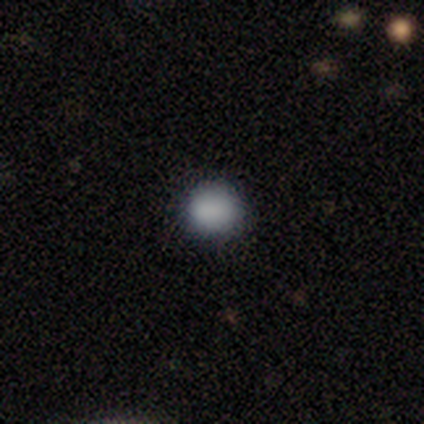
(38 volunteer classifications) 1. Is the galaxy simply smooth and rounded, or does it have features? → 87% smooth, 13% star or artifact, 0% featured or disk.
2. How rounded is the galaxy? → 91% round, 9% in between, 0% cigar-shaped.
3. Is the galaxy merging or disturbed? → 97% none, 3% minor disturbance, 0% major disturbance, 0% merger.